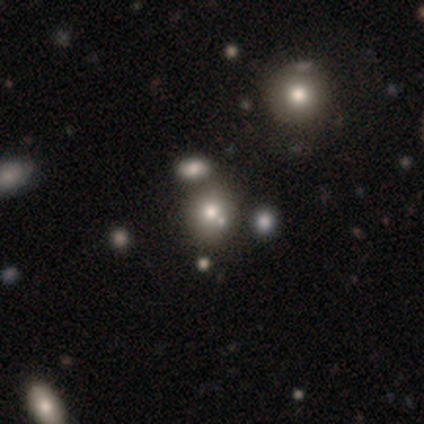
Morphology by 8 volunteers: type=smooth (50%); roundness=round (75%); merging=none (86%).